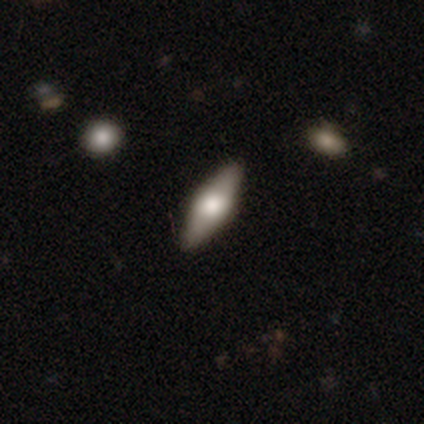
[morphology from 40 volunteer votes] smooth 48%, featured or disk 45%, star or artifact 8%. Down the decision tree: how rounded — in between (53%); merging — none (89%).